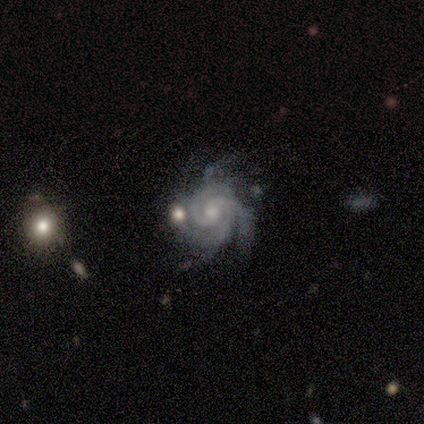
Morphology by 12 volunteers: type=featured or disk (92%); edge-on=no (100%); bar=no (73%); spiral arms=yes (100%); winding=tight (73%); arm count=3 (55%); bulge=moderate (73%); merging=none (45%).